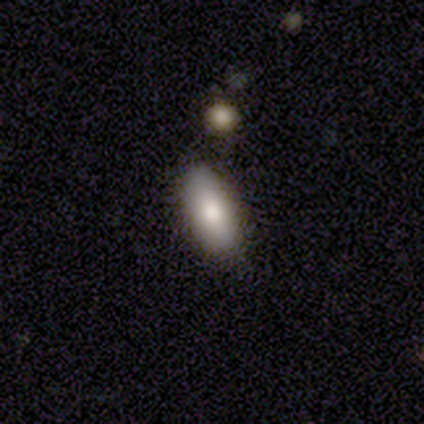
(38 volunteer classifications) Volunteers were most divided on "merging": none: 80%, minor disturbance: 17%, merger: 3%, major disturbance: 0%. More confident: how rounded — in between (84%); smooth or featured — smooth (84%).